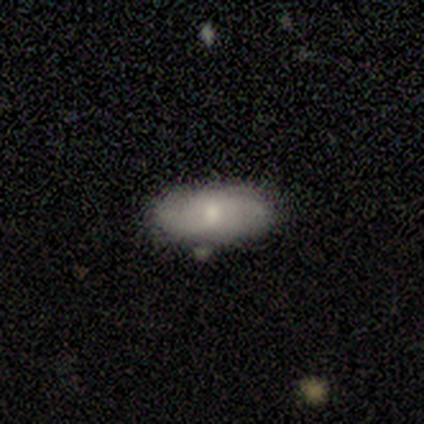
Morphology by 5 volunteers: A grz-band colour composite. It shows a smooth galaxy with no disk features (60%) that is in between round and cigar-shaped (100%). Merging: none (80%).